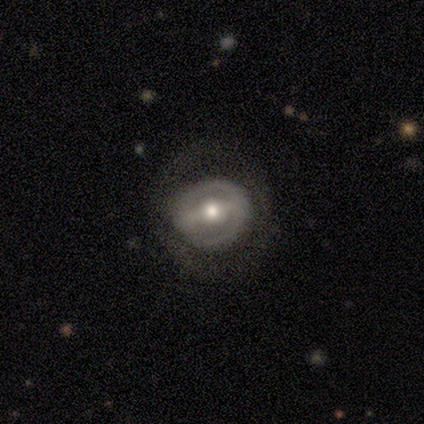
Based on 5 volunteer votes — Q: Smooth or featured?
A: featured or disk (100%)
Q: Edge-on disk?
A: no (100%)
Q: Bar?
A: strong (40%); tied with: weak (40%)
Q: Spiral arms?
A: no (60%); runner-up: yes (40%)
Q: Bulge size?
A: moderate (100%)
Q: Merging?
A: none (100%)